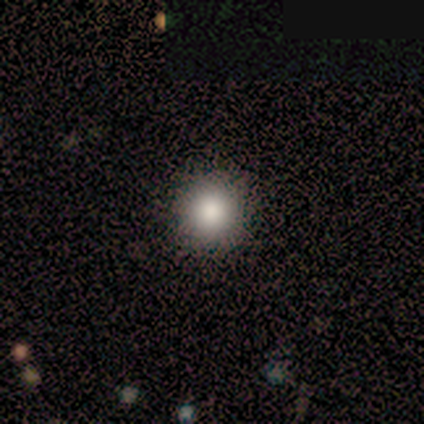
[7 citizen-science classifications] Smooth or featured? smooth (100%)
How rounded? round (100%)
Merging? none (86%)